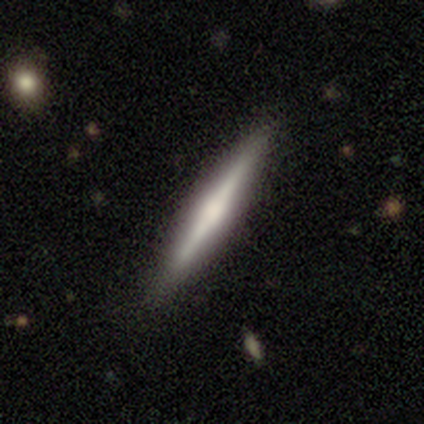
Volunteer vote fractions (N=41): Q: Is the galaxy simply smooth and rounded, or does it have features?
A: featured or disk — 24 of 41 (59%).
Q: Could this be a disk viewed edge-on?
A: yes — 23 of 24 (96%).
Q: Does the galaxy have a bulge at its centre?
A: rounded — 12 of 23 (52%).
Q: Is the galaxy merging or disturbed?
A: none — 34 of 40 (85%).